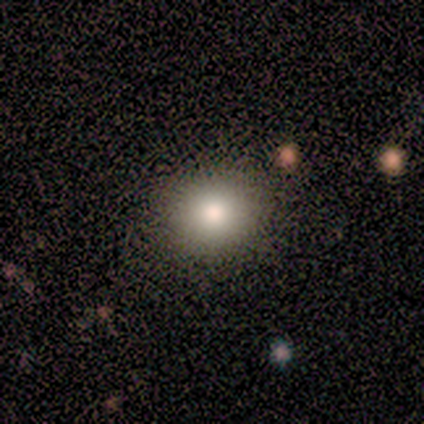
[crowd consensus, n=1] This appears to be a smooth galaxy with no disk features (100%) that is round (100%). Merging: none (100%).